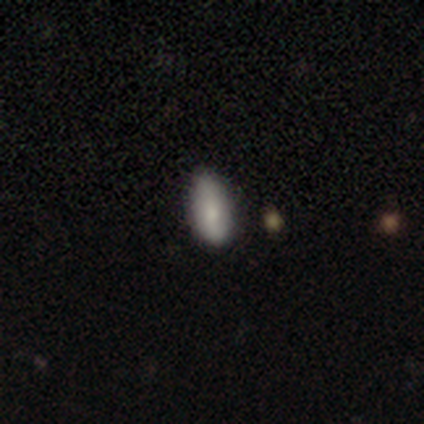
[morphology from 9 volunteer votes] This appears to be a smooth galaxy with no disk features (67%) that is in between round and cigar-shaped (100%). Merging: none (71%).